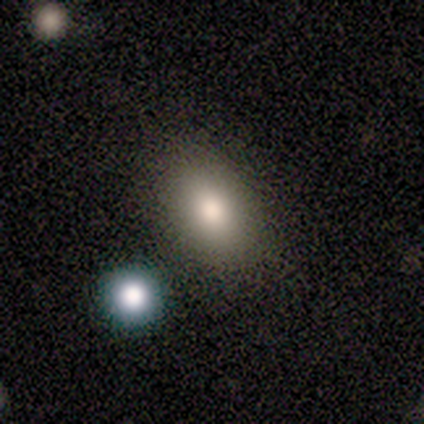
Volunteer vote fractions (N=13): Smooth or featured? 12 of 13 (92%) said smooth. How rounded? 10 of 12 (83%) said in between. Merging? 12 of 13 (92%) said none.